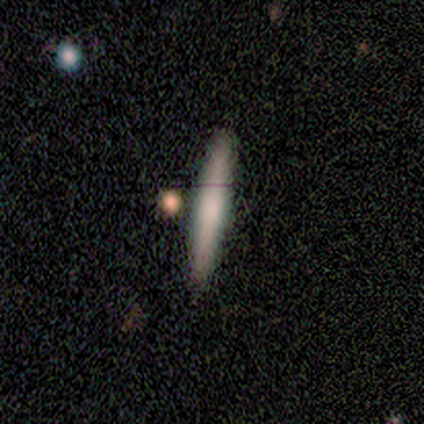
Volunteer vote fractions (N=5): A featured or disk galaxy (60%) viewed edge-on (100%) with a rounded central bulge (67%).

Vote fractions:
- Smooth or featured? featured or disk: 60% / smooth: 40% / star or artifact: 0%
- Edge-on disk? yes: 100% / no: 0%
- Edge-on bulge? rounded: 67% / none: 33% / boxy: 0%
- Merging? none: 80% / merger: 20% / minor disturbance: 0% / major disturbance: 0%